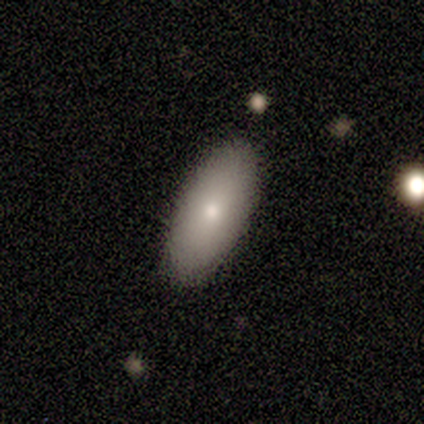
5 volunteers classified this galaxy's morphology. Smooth or featured? 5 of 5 (100%) said smooth. How rounded? 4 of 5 (80%) said in between. Merging? 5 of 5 (100%) said none.